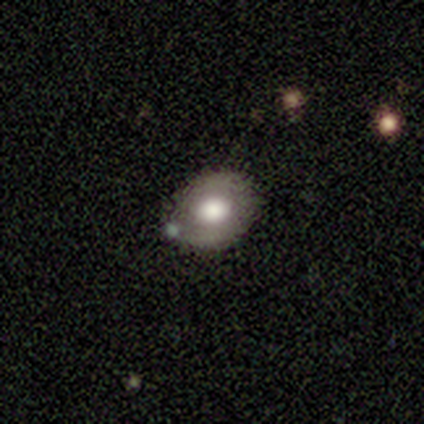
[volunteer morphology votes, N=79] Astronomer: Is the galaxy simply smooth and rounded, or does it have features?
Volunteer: smooth — 61%.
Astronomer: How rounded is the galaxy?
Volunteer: in between — 52% (runner-up: round, 48%).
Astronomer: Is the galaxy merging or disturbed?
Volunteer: none — 42%.